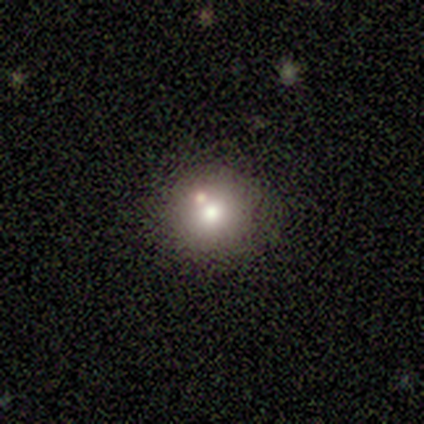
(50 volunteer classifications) Smooth or featured: smooth — 72% (featured or disk — 14%)
How rounded: round — 92% (in between — 8%)
Merging: none — 72% (minor disturbance — 16%)